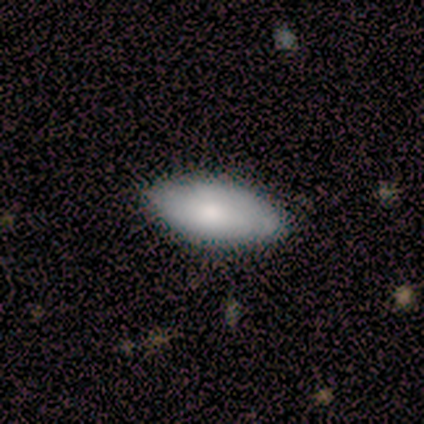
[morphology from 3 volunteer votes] smooth-or-featured: smooth: 67% | featured or disk: 33% | star or artifact: 0%
  how-rounded: in between: 100% | round: 0% | cigar-shaped: 0%
  merging: none: 100% | minor disturbance: 0% | major disturbance: 0% | merger: 0%